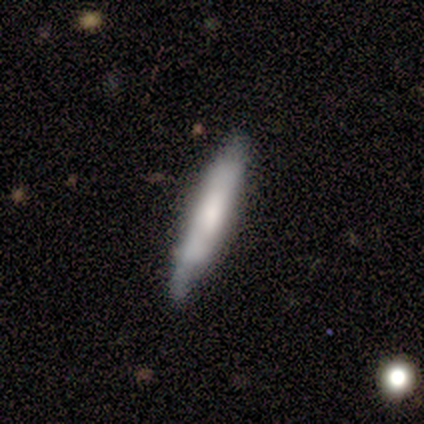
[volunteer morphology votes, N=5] Q: Smooth or featured?
A: smooth (60%); runner-up: featured or disk (40%)
Q: How rounded?
A: cigar-shaped (100%)
Q: Merging?
A: none (100%)